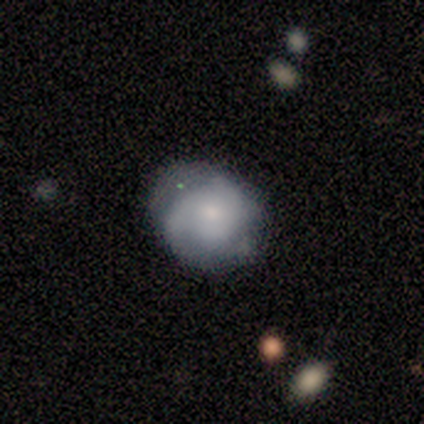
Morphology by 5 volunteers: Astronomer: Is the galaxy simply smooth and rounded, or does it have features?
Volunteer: featured or disk — 80%.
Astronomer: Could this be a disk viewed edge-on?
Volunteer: no — 100%.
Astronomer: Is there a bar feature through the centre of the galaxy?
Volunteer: no — 75%.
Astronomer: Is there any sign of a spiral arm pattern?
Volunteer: yes — 100%.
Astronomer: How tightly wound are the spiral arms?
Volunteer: medium — 75%.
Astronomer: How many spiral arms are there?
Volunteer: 2 — 75%.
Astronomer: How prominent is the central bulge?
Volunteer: small — 100%.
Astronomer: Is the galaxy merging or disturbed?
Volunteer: none — 100%.